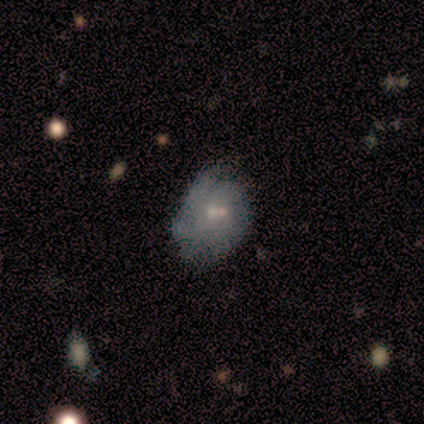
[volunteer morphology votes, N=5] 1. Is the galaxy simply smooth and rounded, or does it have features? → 60% smooth, 20% featured or disk, 20% star or artifact.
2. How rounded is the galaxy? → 100% in between, 0% round, 0% cigar-shaped.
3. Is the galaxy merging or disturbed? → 50% minor disturbance, 25% none, 25% merger, 0% major disturbance.